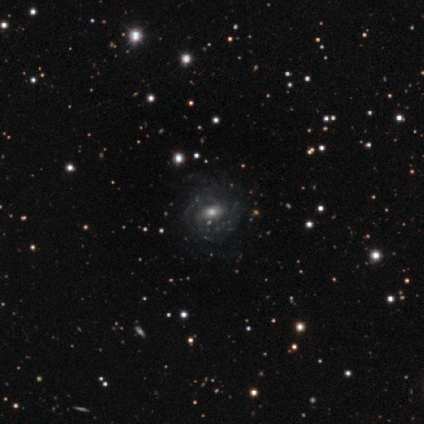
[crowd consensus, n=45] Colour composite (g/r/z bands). It shows a featured or disk galaxy (73%) with a weak bar (41%, tied with no), tight (45%) spiral arms (97%) and a moderate central bulge (53%). Merging: none (62%).